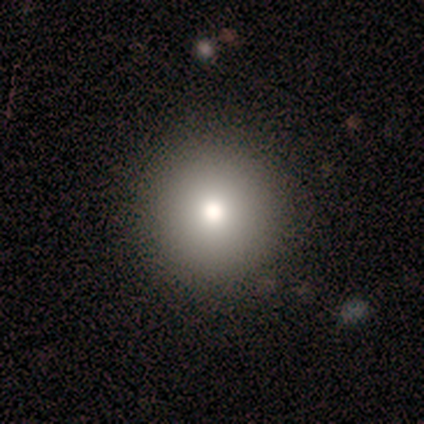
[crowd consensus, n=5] This appears to be a smooth galaxy with no disk features (100%) that is round (100%). Merging: none (100%).